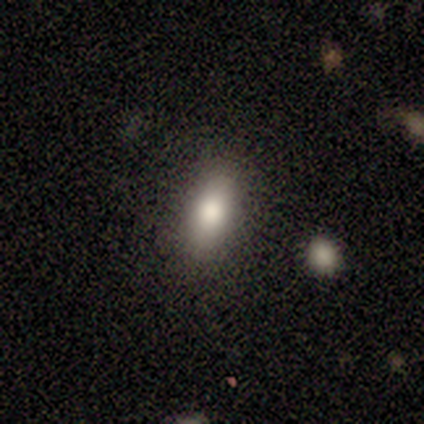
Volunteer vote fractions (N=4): Smooth or featured? smooth (100%)
How rounded? in between (100%)
Merging? none (100%)